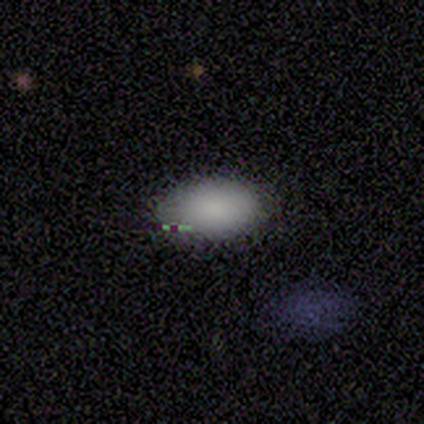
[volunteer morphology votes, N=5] smooth-or-featured: smooth: 100% | featured or disk: 0% | star or artifact: 0%
  how-rounded: in between: 100% | round: 0% | cigar-shaped: 0%
  merging: none: 80% | minor disturbance: 20% | major disturbance: 0% | merger: 0%